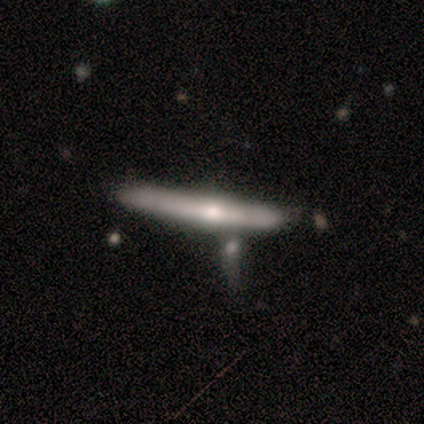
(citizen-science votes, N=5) Smooth or featured: smooth — 60% (featured or disk — 40%)
How rounded: cigar-shaped — 100%
Merging: none — 60% (minor disturbance — 20%)